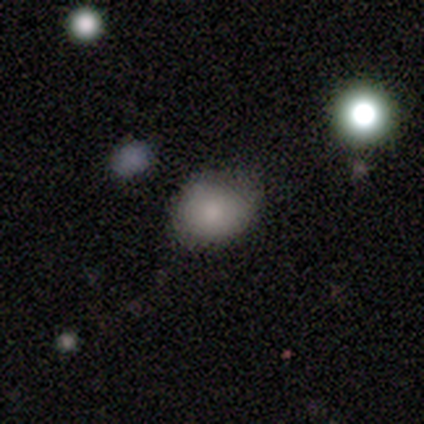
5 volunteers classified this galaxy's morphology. Smooth or featured?
  - smooth: 100% *
  - featured or disk: 0%
  - star or artifact: 0%
How rounded?
  - round: 60% *
  - in between: 40%
  - cigar-shaped: 0%
Merging?
  - none: 60% *
  - minor disturbance: 40%
  - major disturbance: 0%
  - merger: 0%